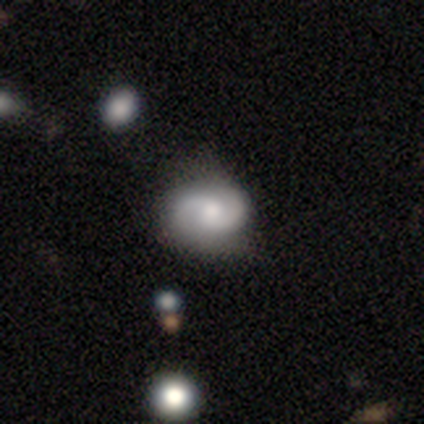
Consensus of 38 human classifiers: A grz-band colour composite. It shows a featured or disk galaxy (76%) with no bar (75%), 2 (86%) medium (46%) spiral arms (100%) and a moderate central bulge (64%). Merging: none (72%).